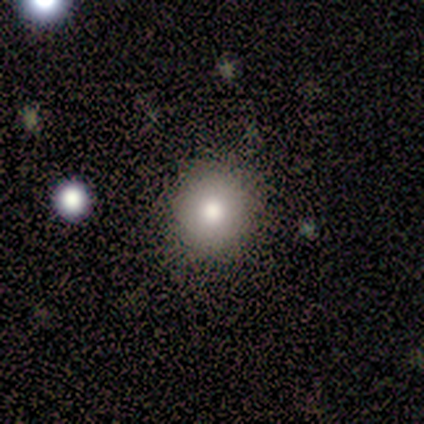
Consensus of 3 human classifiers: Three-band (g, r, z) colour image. It shows a smooth galaxy with no disk features (100%) that is round (67%). Merging: none (100%).